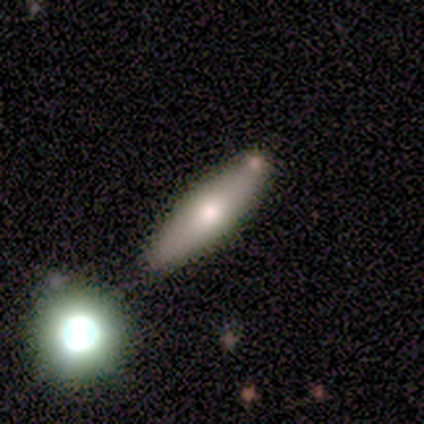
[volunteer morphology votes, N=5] Smooth or featured? 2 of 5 (40%, tied with featured or disk) said smooth. How rounded? 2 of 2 (100%) said cigar-shaped. Merging? 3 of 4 (75%) said none.